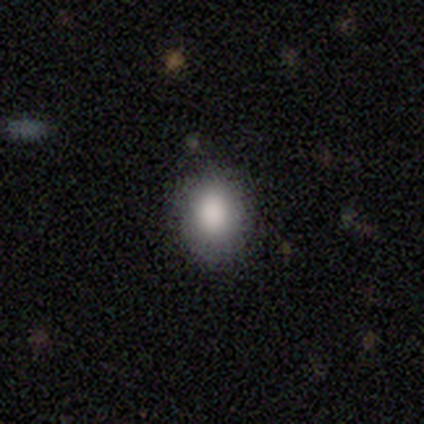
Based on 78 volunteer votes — Volunteers were most divided on "how rounded": in between: 61%, round: 39%, cigar-shaped: 0%. More confident: smooth or featured — smooth (86%); merging — none (50%).